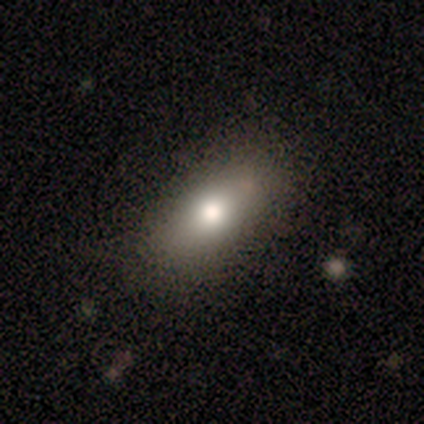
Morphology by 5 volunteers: smooth_or_featured: smooth (p=0.60) [alt: featured or disk p=0.20]
how_rounded: in between (p=1.00)
merging: none (p=0.75) [alt: minor disturbance p=0.25]